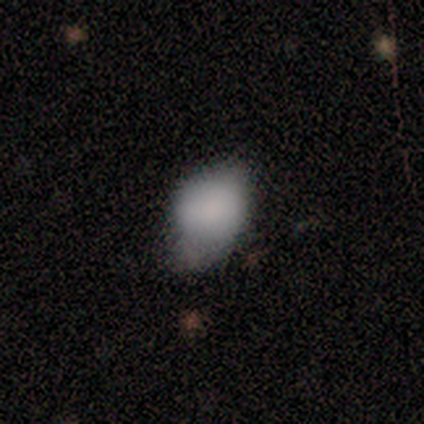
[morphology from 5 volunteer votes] A smooth galaxy with no disk features (80%) that is round (75%).

Vote fractions:
- Smooth or featured? smooth: 80% / star or artifact: 20% / featured or disk: 0%
- How rounded? round: 75% / in between: 25% / cigar-shaped: 0%
- Merging? minor disturbance: 100% / none: 0% / major disturbance: 0% / merger: 0%